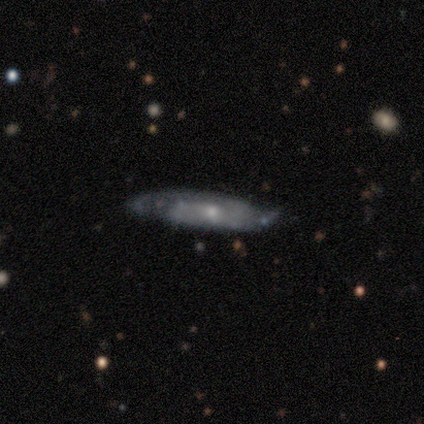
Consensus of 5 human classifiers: Smooth or featured? featured or disk (60%)
Edge-on disk? yes (100%)
Edge-on bulge? boxy (33%, tied with none and rounded)
Merging? none (100%)